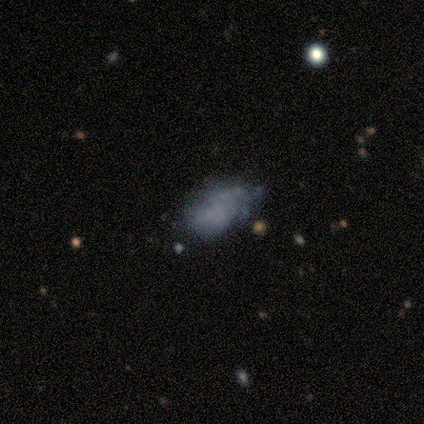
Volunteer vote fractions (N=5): smooth_or_featured: smooth (p=0.60) [alt: featured or disk p=0.20]
how_rounded: in between (p=1.00)
merging: none (p=0.75) [alt: minor disturbance p=0.25]